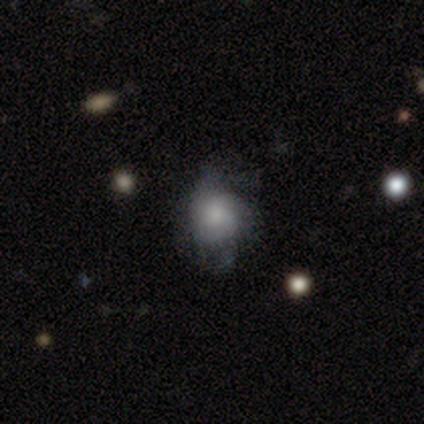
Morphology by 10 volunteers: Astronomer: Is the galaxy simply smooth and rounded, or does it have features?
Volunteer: smooth — 90%.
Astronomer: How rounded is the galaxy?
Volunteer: round — 78%.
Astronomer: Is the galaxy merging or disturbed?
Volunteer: none — 80%.